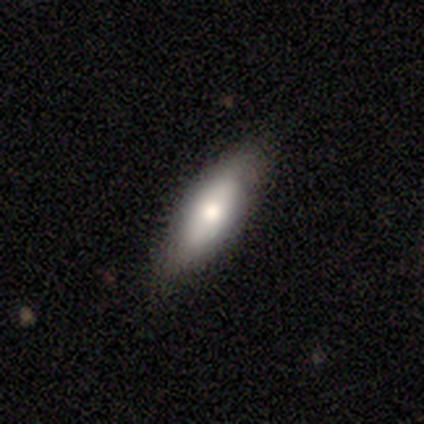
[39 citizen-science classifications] Smooth or featured?
  - smooth: 72% *
  - featured or disk: 21%
  - star or artifact: 8%
How rounded?
  - in between: 64% *
  - cigar-shaped: 36%
  - round: 0%
Merging?
  - none: 83% *
  - minor disturbance: 14%
  - major disturbance: 3%
  - merger: 0%